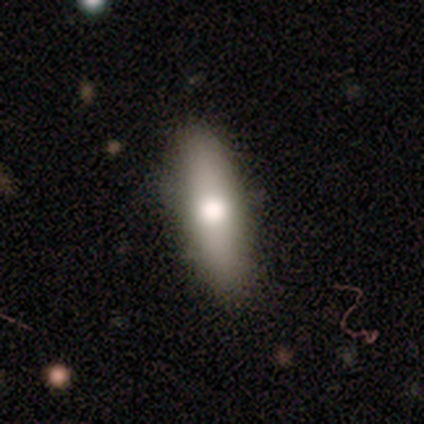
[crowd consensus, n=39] smooth 77%, featured or disk 13%, star or artifact 10%. Down the decision tree: how rounded — in between (67%); merging — none (89%).